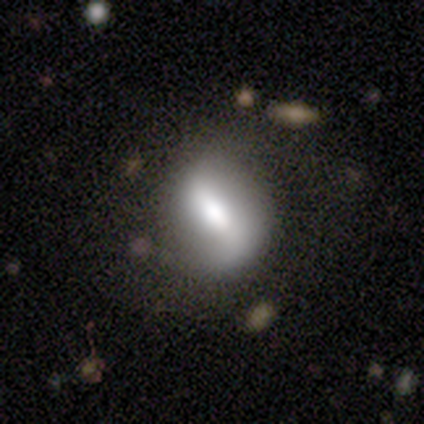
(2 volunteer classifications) This appears to be a smooth galaxy with no disk features (50%, tied with featured or disk) that is in between round and cigar-shaped (100%). Merging: none (100%).